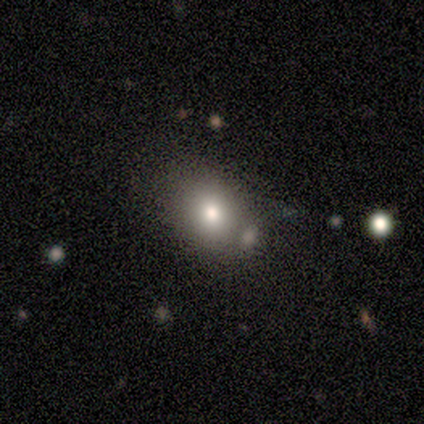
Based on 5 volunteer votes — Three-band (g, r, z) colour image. It shows a smooth galaxy with no disk features (80%) that is in between round and cigar-shaped (75%). Merging: none (50%, tied with minor disturbance).